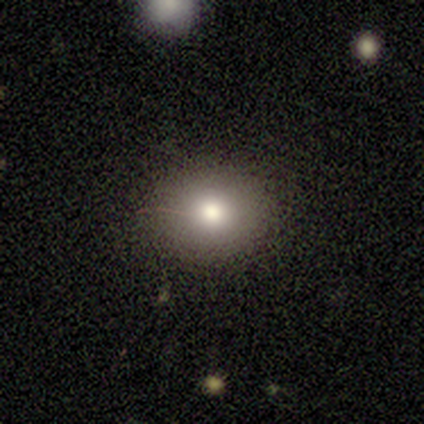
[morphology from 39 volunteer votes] Volunteers were most divided on "how rounded": round: 69%, in between: 31%, cigar-shaped: 0%. More confident: merging — none (97%); smooth or featured — smooth (74%).